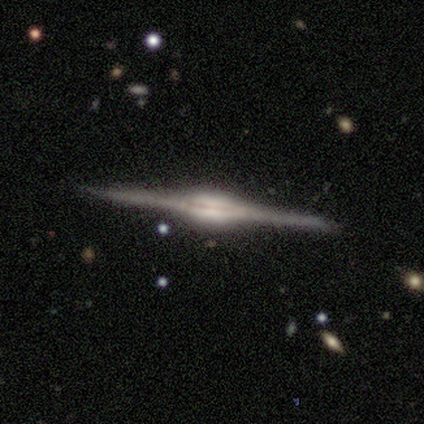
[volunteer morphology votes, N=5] Q: Smooth or featured?
A: featured or disk (80%); runner-up: smooth (20%)
Q: Edge-on disk?
A: yes (75%); runner-up: no (25%)
Q: Edge-on bulge?
A: rounded (67%); runner-up: boxy (33%)
Q: Merging?
A: none (100%)